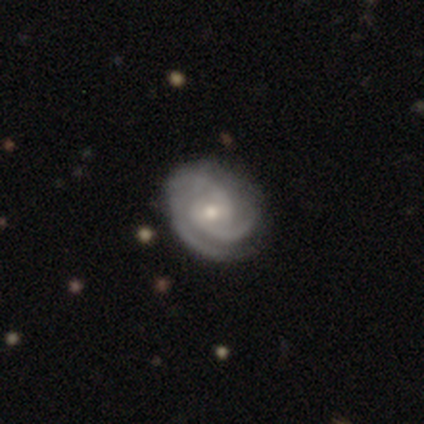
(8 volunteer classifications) Smooth or featured? featured or disk (100%)
Edge-on disk? no (100%)
Bar? no (50%)
Spiral arms? yes (100%)
Spiral winding? tight (62%)
Spiral arm count? 2 (38%, tied with 3)
Bulge size? moderate (50%, tied with small)
Merging? none (100%)